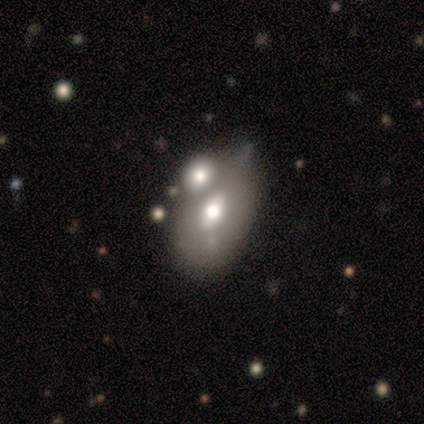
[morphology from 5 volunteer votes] Overall: featured or disk (60%; smooth 40%). Edge-on disk: no (67%; yes 33%). Bar: no (100%). Spiral arms: no (100%). Bulge size: moderate (50%, tied with small). Merging: none (40%, tied with merger).